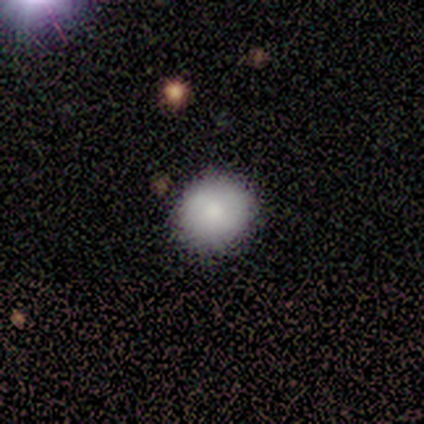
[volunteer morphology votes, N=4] This is possibly a featured or disk galaxy (50%). It is clearly not viewed edge-on (100%). Bar: clearly no (100%). Spiral arm pattern: possibly yes (50%, tied with no). Spiral arm count: clearly 2 (100%). Spiral winding: clearly tight (100%). Central bulge: clearly moderate (100%). Merging: clearly none (100%).